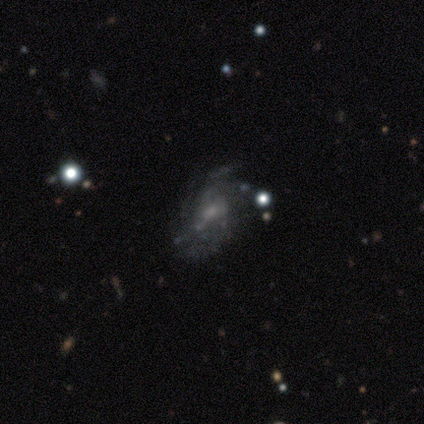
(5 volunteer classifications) smooth_or_featured: featured or disk (p=0.80) [alt: smooth p=0.20]
disk_edge_on: no (p=1.00)
bar: no (p=0.75) [alt: weak p=0.25]
has_spiral_arms: yes (p=1.00)
spiral_winding: medium (p=0.50) [alt: tight p=0.25]
spiral_arm_count: 3 (p=0.50) [alt: 4 p=0.25]
bulge_size: small (p=0.50) [alt: moderate p=0.25]
merging: none (p=0.60) [alt: major disturbance p=0.40]